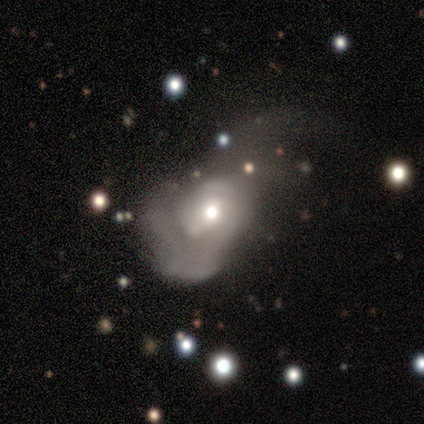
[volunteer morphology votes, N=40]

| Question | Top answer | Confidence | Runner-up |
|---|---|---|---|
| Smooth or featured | featured or disk | 55% | smooth (42%) |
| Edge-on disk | no | 91% | yes (9%) |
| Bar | no | 65% | weak (35%) |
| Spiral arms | yes | 55% | no (45%) |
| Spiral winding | loose | 45% | tight (27%) |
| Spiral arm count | can't tell | 55% | 2 (18%) |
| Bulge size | moderate | 70% | small (25%) |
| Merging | major disturbance | 77% | minor disturbance (13%) |